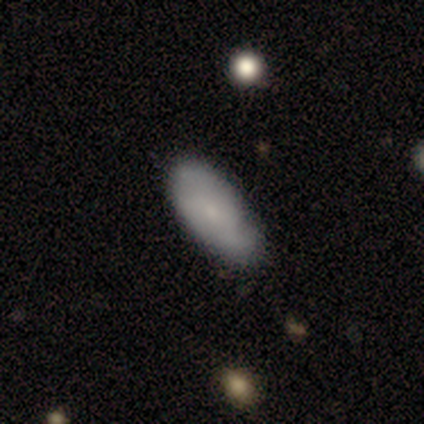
smooth-or-featured: smooth: 80% | star or artifact: 20% | featured or disk: 0%
  how-rounded: in between: 100% | round: 0% | cigar-shaped: 0%
  merging: none: 50% (tied) | minor disturbance: 50% (tied) | major disturbance: 0% | merger: 0%